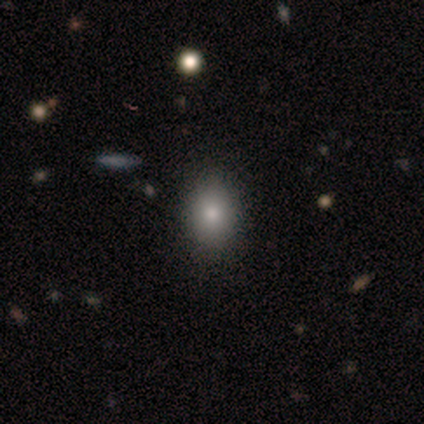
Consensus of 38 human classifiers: Smooth or featured? smooth (76%)
How rounded? in between (52%)
Merging? none (61%)